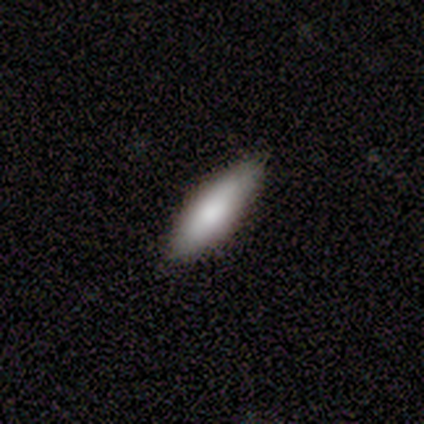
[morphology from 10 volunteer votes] Smooth or featured? 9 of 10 (90%) said smooth. How rounded? 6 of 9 (67%) said cigar-shaped. Merging? 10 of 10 (100%) said none.